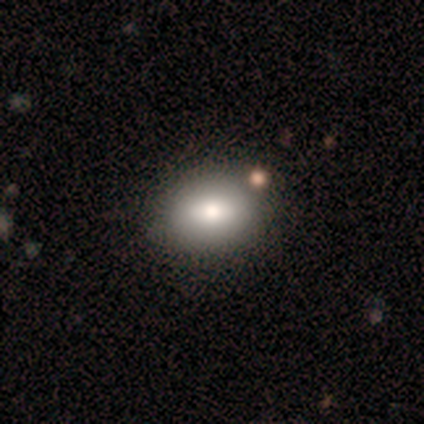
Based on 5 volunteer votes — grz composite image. It shows a smooth galaxy with no disk features (60%) that is in between round and cigar-shaped (67%). Merging: none (100%).